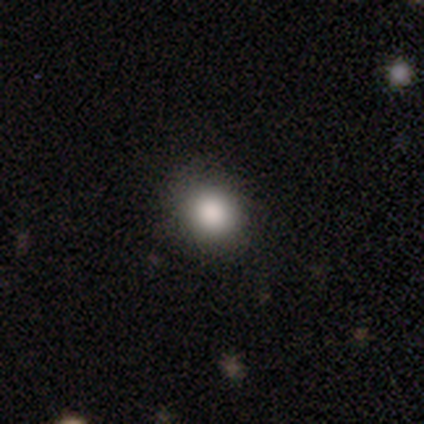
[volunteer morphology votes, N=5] type=smooth (80%); roundness=round (75%); merging=none (100%).